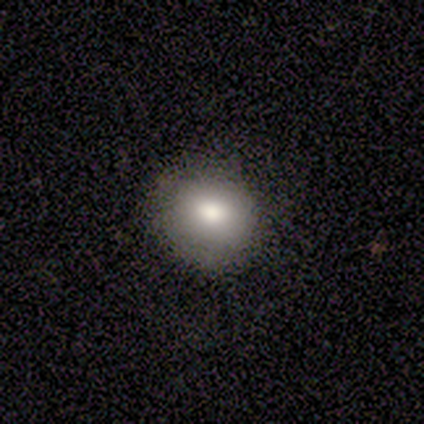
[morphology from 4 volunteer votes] A smooth galaxy with no disk features (75%) that is round (67%). Merging: none (100%).